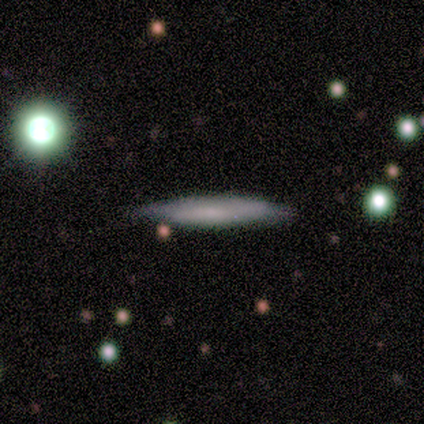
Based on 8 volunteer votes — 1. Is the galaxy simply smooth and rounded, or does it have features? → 62% smooth, 38% featured or disk, 0% star or artifact.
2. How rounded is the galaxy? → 100% cigar-shaped, 0% round, 0% in between.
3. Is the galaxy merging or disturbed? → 62% none, 38% minor disturbance, 0% major disturbance, 0% merger.